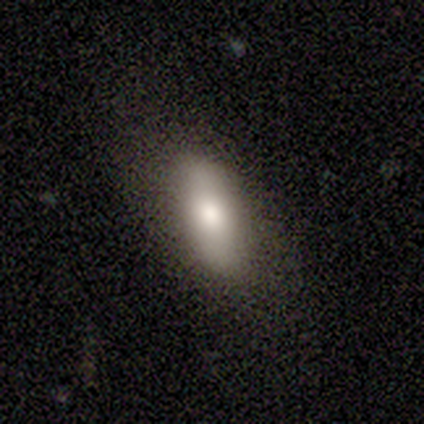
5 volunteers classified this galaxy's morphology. Smooth or featured?
  - smooth: 80% *
  - featured or disk: 20%
  - star or artifact: 0%
How rounded?
  - in between: 100% *
  - round: 0%
  - cigar-shaped: 0%
Merging?
  - none: 100% *
  - minor disturbance: 0%
  - major disturbance: 0%
  - merger: 0%